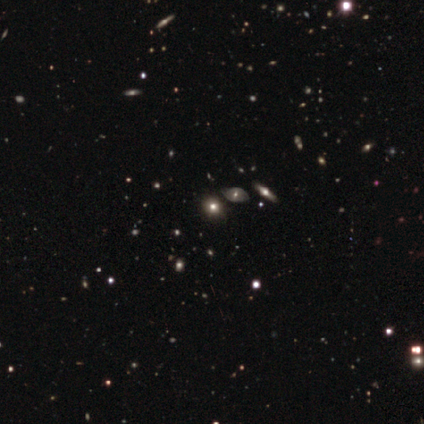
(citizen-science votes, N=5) Smooth or featured? featured or disk (40%, tied with star or artifact)
Edge-on disk? no (100%)
Bar? weak (50%, tied with no)
Spiral arms? no (100%)
Bulge size? moderate (50%, tied with small)
Merging? none (100%)